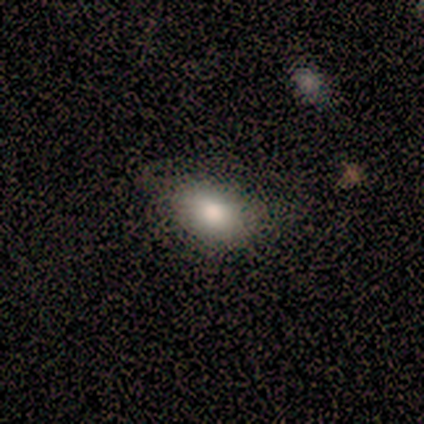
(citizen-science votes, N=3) Smooth or featured: smooth — 100%
How rounded: in between — 67% (round — 33%)
Merging: none — 100%